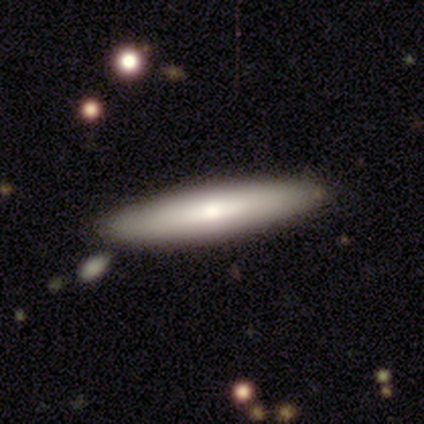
Overall: smooth (100%). How rounded: cigar-shaped (80%). Merging: none (80%).